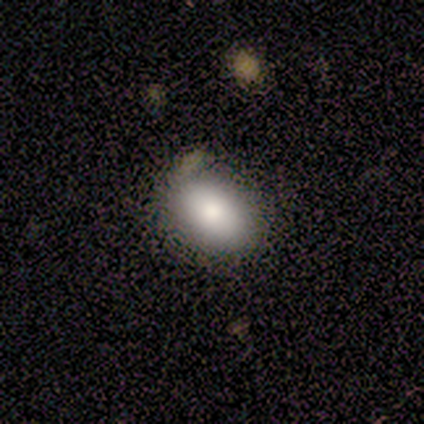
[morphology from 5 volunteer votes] Volunteers were most divided on "smooth or featured": smooth: 80%, featured or disk: 20%, star or artifact: 0%. More confident: how rounded — in between (100%); merging — none (80%).